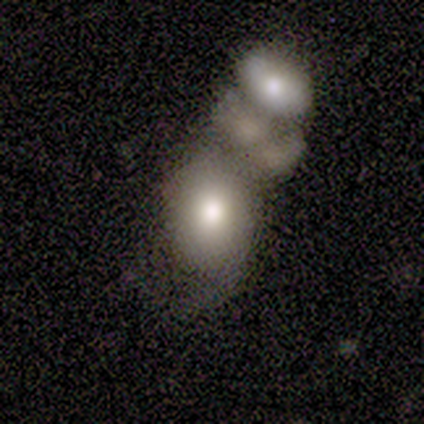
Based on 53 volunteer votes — Smooth or featured? 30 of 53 (57%) said smooth. How rounded? 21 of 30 (70%) said in between. Merging? 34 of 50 (68%) said merger.